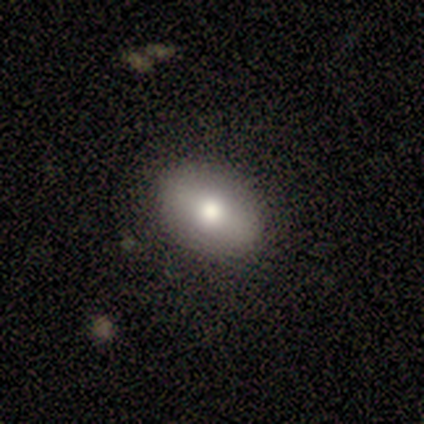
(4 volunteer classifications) Overall: smooth (75%). How rounded: in between (100%). Merging: none (100%).